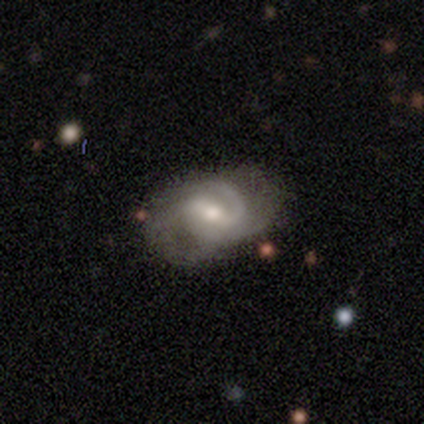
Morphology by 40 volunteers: featured or disk 90%, smooth 8%, star or artifact 2%. Down the decision tree: edge-on disk — no (100%); bar — weak (67%); spiral arms — yes (100%); spiral arm count — 2 (58%); spiral winding — medium (50%); bulge size — moderate (56%); merging — none (77%).